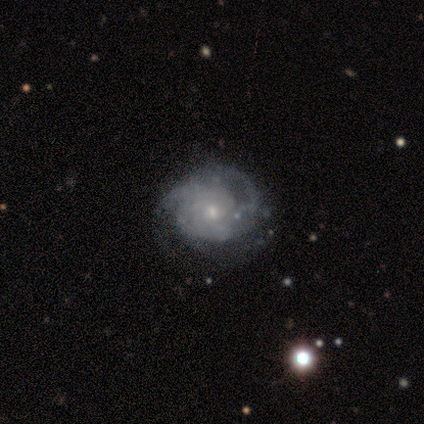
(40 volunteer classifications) Morphology: type=featured or disk (92%); edge-on=no (97%); bar=no (64%); spiral arms=yes (86%); winding=tight (48%); arm count=3 (45%); bulge=small (50%); merging=none (48%).